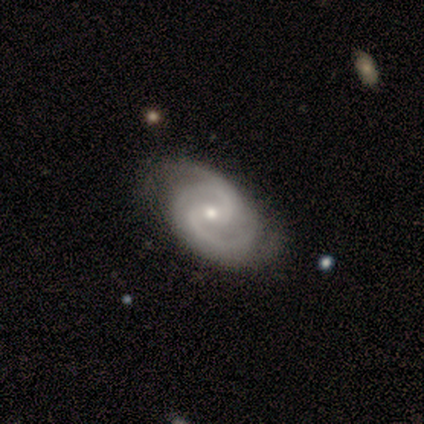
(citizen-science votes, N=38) smooth-or-featured: featured or disk: 89% | smooth: 5% | star or artifact: 5%
  disk-edge-on: no: 100% | yes: 0%
    bar: weak: 56% | no: 35% | strong: 9%
    has-spiral-arms: yes: 100% | no: 0%
      spiral-winding: medium: 62% | tight: 32% | loose: 6%
      spiral-arm-count: 2: 65% | 3: 21% | 4: 9% | can't tell: 6% | 1: 0% | more than 4: 0%
    bulge-size: small: 53% | moderate: 44% | none: 3% | dominant: 0% | large: 0%
  merging: none: 50% | minor disturbance: 22% | major disturbance: 8% | merger: 0%